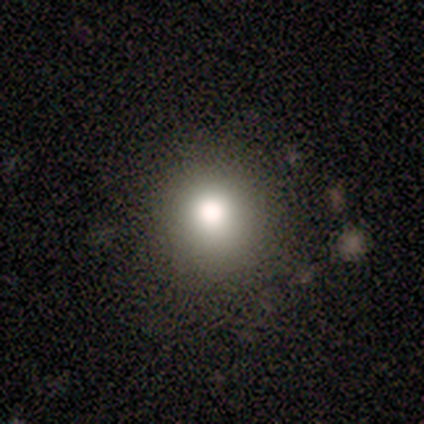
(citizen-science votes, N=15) Smooth or featured? smooth (73%)
How rounded? round (100%)
Merging? none (92%)